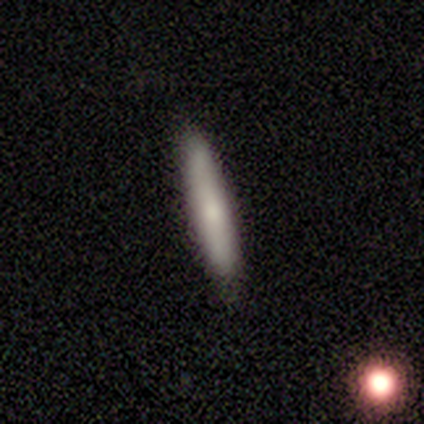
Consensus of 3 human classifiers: Q: Smooth or featured?
A: smooth (67%); runner-up: featured or disk (33%)
Q: How rounded?
A: cigar-shaped (100%)
Q: Merging?
A: none (100%)